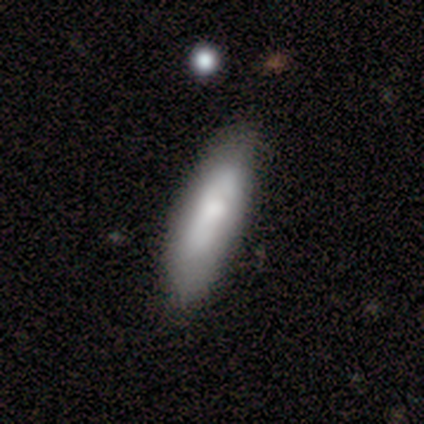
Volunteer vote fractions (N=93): Smooth or featured?
  - smooth: 74% *
  - featured or disk: 19%
  - star or artifact: 6%
How rounded?
  - cigar-shaped: 65% *
  - in between: 35%
  - round: 0%
Merging?
  - none: 71% *
  - minor disturbance: 23%
  - major disturbance: 6%
  - merger: 0%